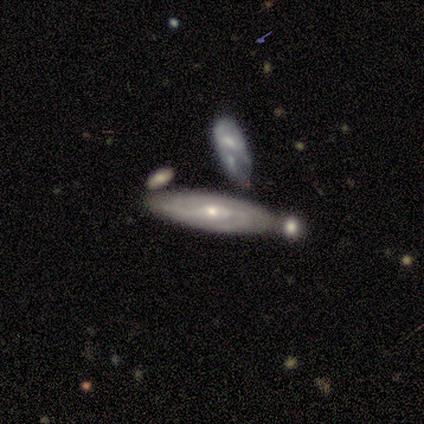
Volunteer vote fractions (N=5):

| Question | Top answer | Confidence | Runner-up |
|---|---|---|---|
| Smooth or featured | featured or disk | 100% | — |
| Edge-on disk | no | 100% | — |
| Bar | weak | 60% | no (40%) |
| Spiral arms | yes | 100% | — |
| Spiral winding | tight | 60% | medium (40%) |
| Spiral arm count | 2 | 80% | can't tell (20%) |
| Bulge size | small | 60% | moderate (40%) |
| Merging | none | 60% | minor disturbance (40%) |